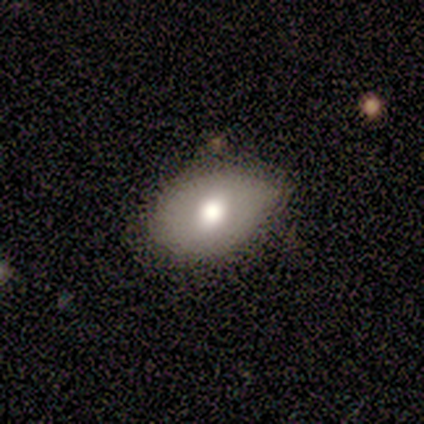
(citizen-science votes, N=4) smooth-or-featured: smooth: 100% | featured or disk: 0% | star or artifact: 0%
  how-rounded: in between: 75% | round: 25% | cigar-shaped: 0%
  merging: none: 50% (tied) | minor disturbance: 50% (tied) | major disturbance: 0% | merger: 0%